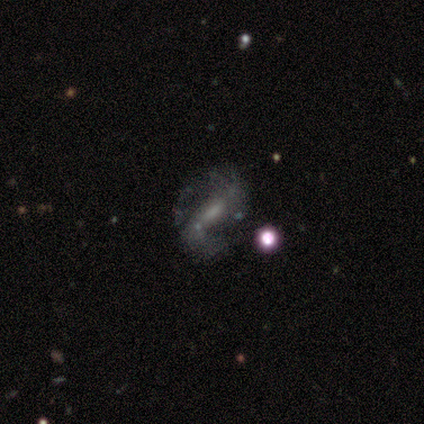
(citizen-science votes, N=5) Smooth or featured: featured or disk — 100%
Edge-on disk: no — 80% (yes — 20%)
Bar: weak — 75% (strong — 25%)
Spiral arms: yes — 100%
Spiral winding: medium — 50% (tied with loose — 50%)
Spiral arm count: 2 — 75% (1 — 25%)
Bulge size: small — 50% (moderate — 25%)
Merging: none — 40% (tied with major disturbance — 40%)